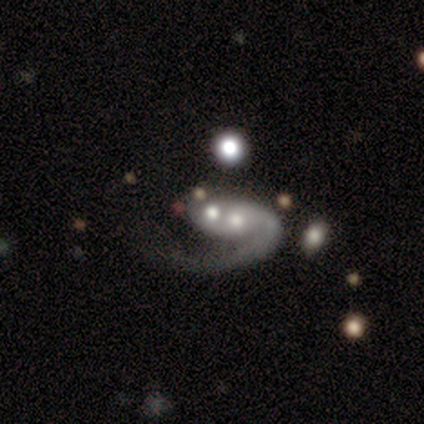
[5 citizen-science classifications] smooth-or-featured: smooth: 60% | featured or disk: 40% | star or artifact: 0%
  how-rounded: in between: 67% | round: 33% | cigar-shaped: 0%
  merging: major disturbance: 60% | merger: 40% | none: 0% | minor disturbance: 0%